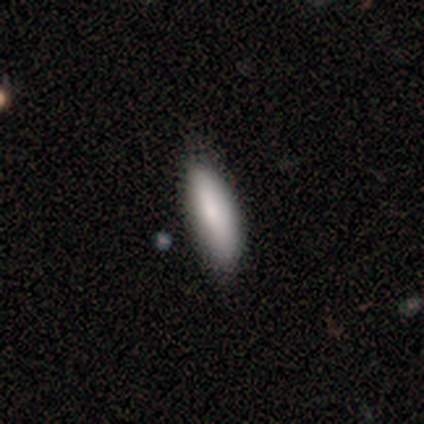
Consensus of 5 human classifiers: Smooth or featured? smooth (100%)
How rounded? cigar-shaped (60%)
Merging? none (80%)